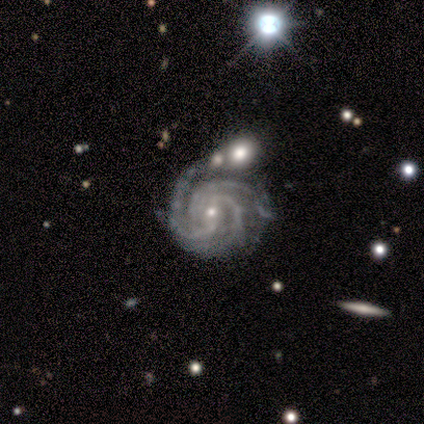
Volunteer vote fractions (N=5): Smooth or featured? 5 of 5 (100%) said featured or disk. Edge-on disk? 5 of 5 (100%) said no. Bar? 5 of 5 (100%) said weak. Spiral arms? 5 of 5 (100%) said yes. Spiral winding? 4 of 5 (80%) said tight. Spiral arm count? 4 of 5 (80%) said 3. Bulge size? 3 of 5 (60%) said small. Merging? 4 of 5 (80%) said none.